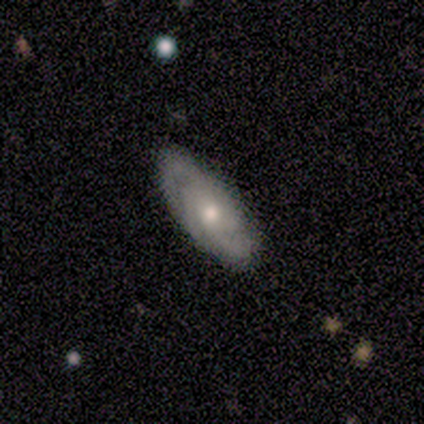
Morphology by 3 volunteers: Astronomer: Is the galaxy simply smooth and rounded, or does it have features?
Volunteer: featured or disk — 100%.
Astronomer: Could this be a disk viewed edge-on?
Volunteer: no — 100%.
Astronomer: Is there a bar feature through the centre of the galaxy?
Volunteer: no — 67%.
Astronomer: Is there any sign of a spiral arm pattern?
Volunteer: yes — 100%.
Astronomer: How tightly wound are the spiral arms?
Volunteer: medium — 67%.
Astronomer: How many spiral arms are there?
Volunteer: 2 — 67%.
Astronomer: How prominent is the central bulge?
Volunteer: moderate — 100%.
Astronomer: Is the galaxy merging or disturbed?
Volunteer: none — 100%.